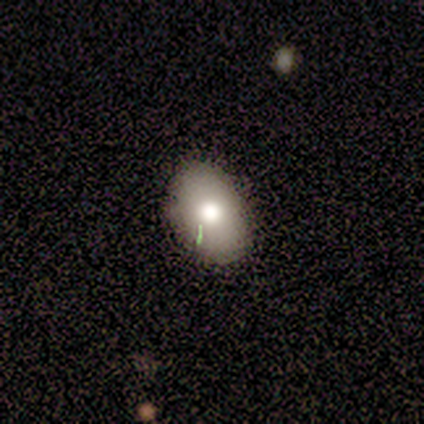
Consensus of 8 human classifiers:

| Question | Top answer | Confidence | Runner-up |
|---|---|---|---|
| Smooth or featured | smooth | 75% | featured or disk (12%) |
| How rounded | in between | 83% | round (17%) |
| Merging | none | 100% | — |